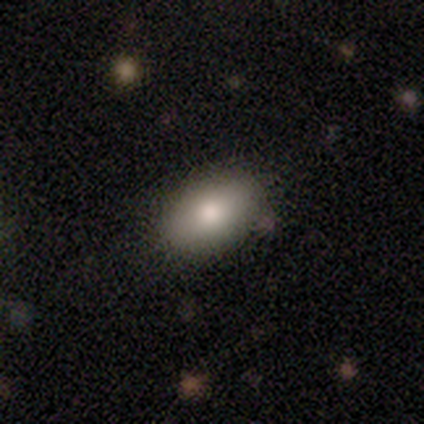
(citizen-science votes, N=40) Overall: smooth (80%). How rounded: in between (94%). Merging: none (89%).